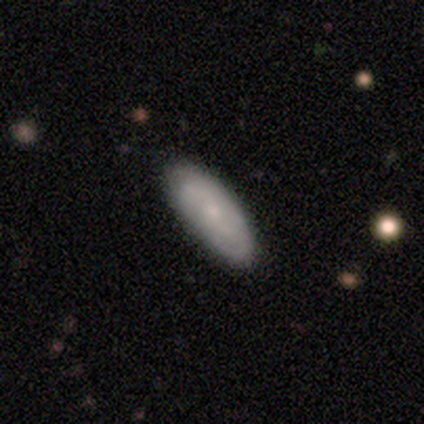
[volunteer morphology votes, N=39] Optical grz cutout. It shows a smooth galaxy with no disk features (54%) that is in between round and cigar-shaped (90%). Merging: none (41%).